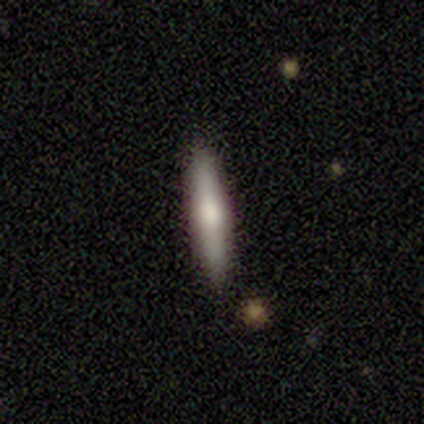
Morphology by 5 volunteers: type=smooth (60%); roundness=cigar-shaped (100%); merging=none (100%).